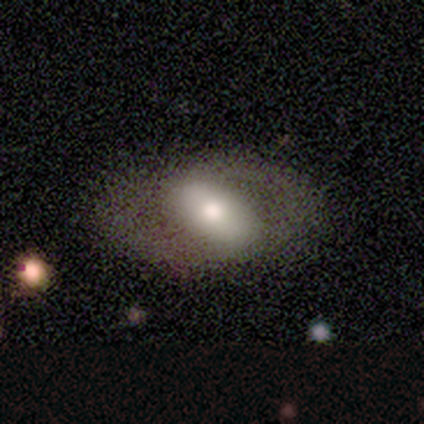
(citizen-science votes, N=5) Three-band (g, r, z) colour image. It shows a featured or disk galaxy (80%) with a strong bar (50%, tied with weak), no spiral arms (75%) and a large central bulge (50%). Merging: none (80%).